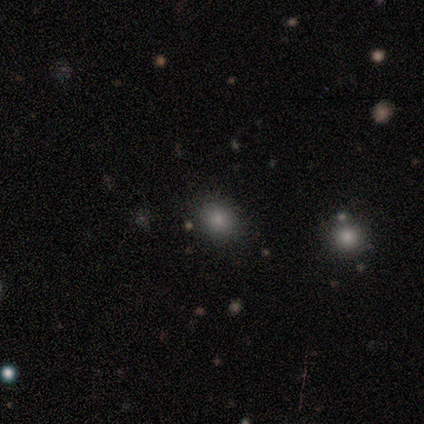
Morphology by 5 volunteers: A smooth galaxy with no disk features (80%) that is in between round and cigar-shaped (75%). Merging: none (75%).